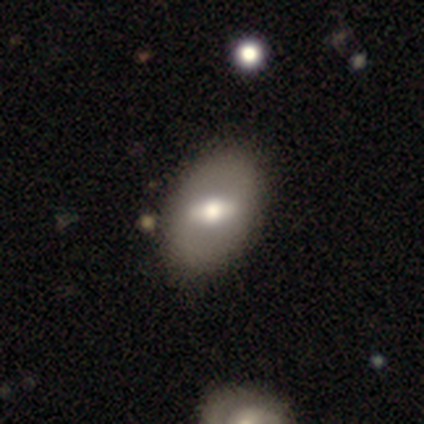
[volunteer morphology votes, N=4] Smooth or featured?
  - smooth: 75% *
  - featured or disk: 25%
  - star or artifact: 0%
How rounded?
  - in between: 100% *
  - round: 0%
  - cigar-shaped: 0%
Merging?
  - none: 100% *
  - minor disturbance: 0%
  - major disturbance: 0%
  - merger: 0%